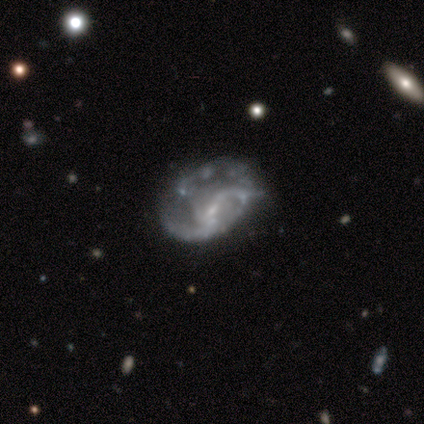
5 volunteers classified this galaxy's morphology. Smooth or featured? featured or disk (100%)
Edge-on disk? no (100%)
Bar? no (60%)
Spiral arms? yes (60%)
Spiral winding? loose (100%)
Spiral arm count? 2 (67%)
Bulge size? moderate (40%, tied with small)
Merging? none (60%)